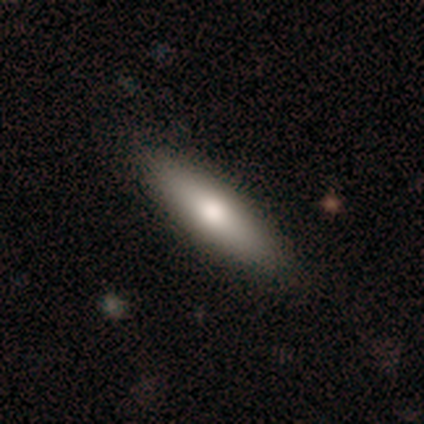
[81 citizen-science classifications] smooth 69%, featured or disk 28%, star or artifact 2%. Down the decision tree: how rounded — cigar-shaped (79%); merging — none (91%).